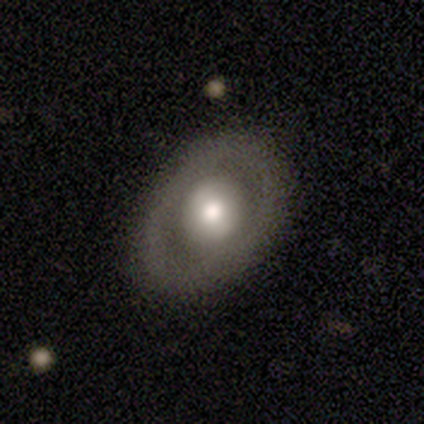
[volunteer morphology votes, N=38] Volunteers were most divided on "bulge size": moderate: 46%, large: 42%, dominant: 8%, small: 4%, none: 0%. More confident: edge-on disk — no (96%); spiral arms — no (92%); merging — none (81%); smooth or featured — featured or disk (71%); bar — no (69%).